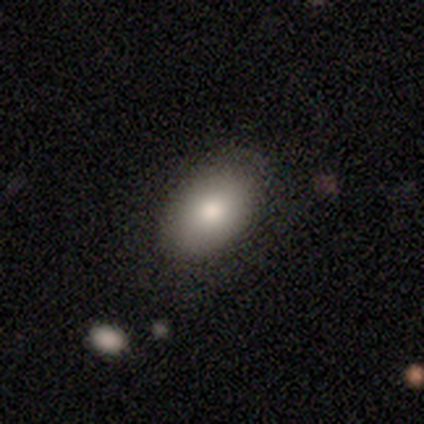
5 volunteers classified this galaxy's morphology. A smooth galaxy with no disk features (80%) that is in between round and cigar-shaped (100%).

Vote fractions:
- Smooth or featured? smooth: 80% / featured or disk: 20% / star or artifact: 0%
- How rounded? in between: 100% / round: 0% / cigar-shaped: 0%
- Merging? none: 80% / minor disturbance: 20% / major disturbance: 0% / merger: 0%